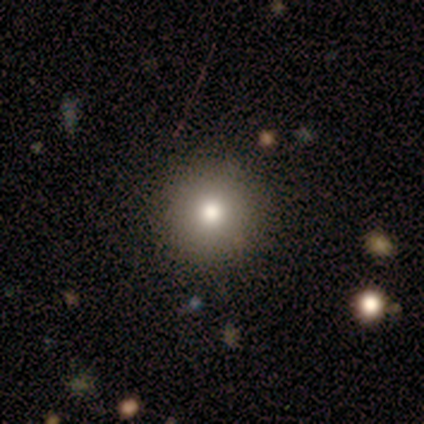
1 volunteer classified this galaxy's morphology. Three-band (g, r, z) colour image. It shows a smooth galaxy with no disk features (100%) that is round (100%). Merging: none (100%).